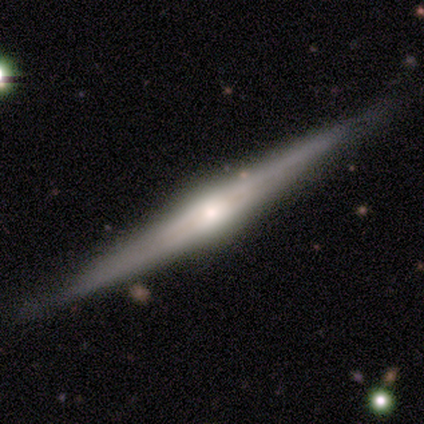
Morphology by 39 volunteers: This appears to be a featured or disk galaxy (92%) viewed edge-on (97%) with a rounded central bulge (77%). Merging: none (84%).